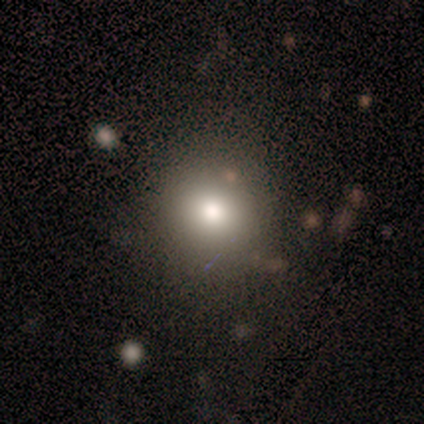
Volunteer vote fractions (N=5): Smooth or featured? 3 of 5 (60%) said smooth. How rounded? 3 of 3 (100%) said round. Merging? 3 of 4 (75%) said none.